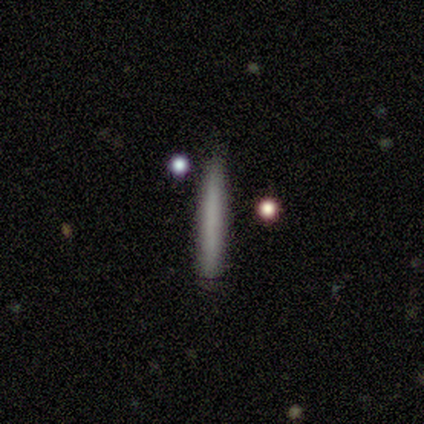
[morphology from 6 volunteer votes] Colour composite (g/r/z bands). It shows a smooth galaxy with no disk features (67%) that is cigar-shaped (100%). Merging: none (80%).